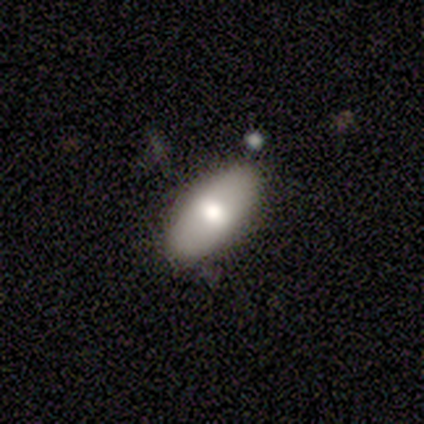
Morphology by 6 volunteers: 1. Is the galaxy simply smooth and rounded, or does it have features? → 83% smooth, 17% featured or disk, 0% star or artifact.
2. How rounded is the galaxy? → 100% in between, 0% round, 0% cigar-shaped.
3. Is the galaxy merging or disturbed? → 83% none, 17% minor disturbance, 0% major disturbance, 0% merger.